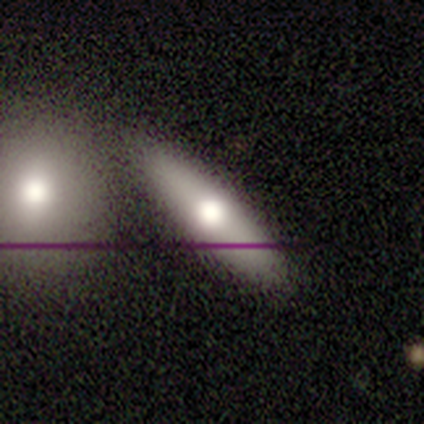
Overall: smooth (48%; featured or disk 44%). How rounded: cigar-shaped (54%; in between 46%). Merging: none (57%; merger 26%).